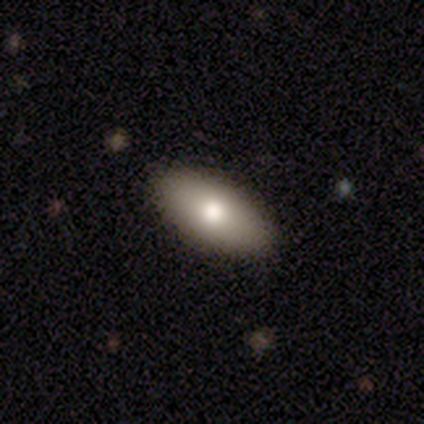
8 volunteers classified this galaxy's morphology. A smooth galaxy with no disk features (100%) that is in between round and cigar-shaped (100%).

Vote fractions:
- Smooth or featured? smooth: 100% / featured or disk: 0% / star or artifact: 0%
- How rounded? in between: 100% / round: 0% / cigar-shaped: 0%
- Merging? none: 88% / minor disturbance: 12% / major disturbance: 0% / merger: 0%